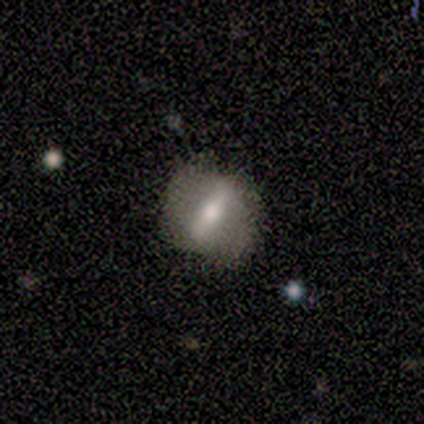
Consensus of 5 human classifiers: This is likely a featured or disk galaxy (60%). It is likely not viewed edge-on (67%). Bar: possibly strong (50%, tied with no). Spiral arm pattern: clearly no (100%). Central bulge: clearly moderate (100%). Merging: likely none (75%).